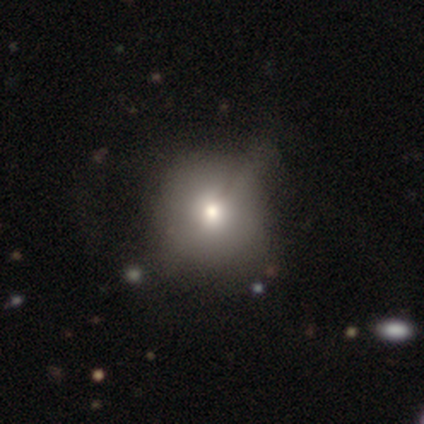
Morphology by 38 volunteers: A smooth galaxy with no disk features (71%) that is round (100%).

Vote fractions:
- Smooth or featured? smooth: 71% / featured or disk: 26% / star or artifact: 3%
- How rounded? round: 100% / in between: 0% / cigar-shaped: 0%
- Merging? none: 41% / minor disturbance: 32% / major disturbance: 5% / merger: 3%